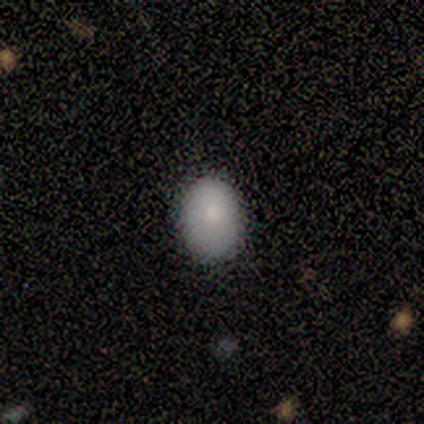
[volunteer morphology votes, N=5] Volunteers were most divided on "how rounded": in between: 75%, round: 25%, cigar-shaped: 0%. More confident: merging — none (100%); smooth or featured — smooth (80%).